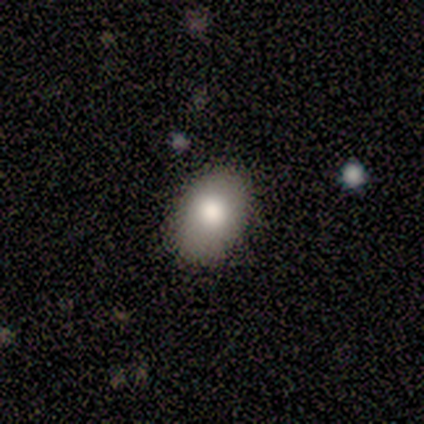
This is likely a smooth galaxy (77%). How rounded: clearly in between (80%). Merging: likely none (77%).